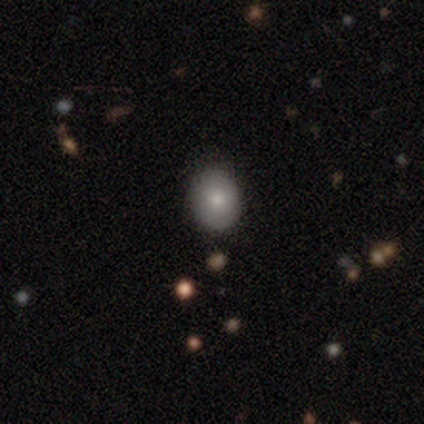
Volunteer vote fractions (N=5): smooth 40% (tied), featured or disk 40% (tied), star or artifact 20%. Down the decision tree: how rounded — round (50%, tied with in between); merging — none (50%, tied with minor disturbance).